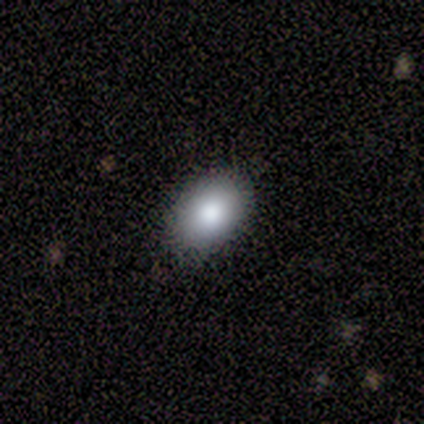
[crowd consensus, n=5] smooth_or_featured: smooth (p=1.00)
how_rounded: in between (p=1.00)
merging: none (p=1.00)